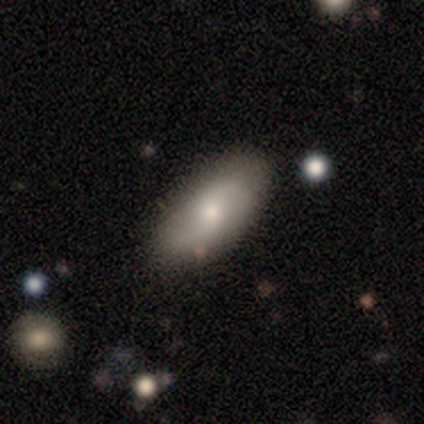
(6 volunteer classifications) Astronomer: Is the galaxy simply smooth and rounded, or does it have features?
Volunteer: smooth — 67%.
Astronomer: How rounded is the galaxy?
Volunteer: in between — 75%.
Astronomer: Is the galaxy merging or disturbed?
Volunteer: none — 100%.